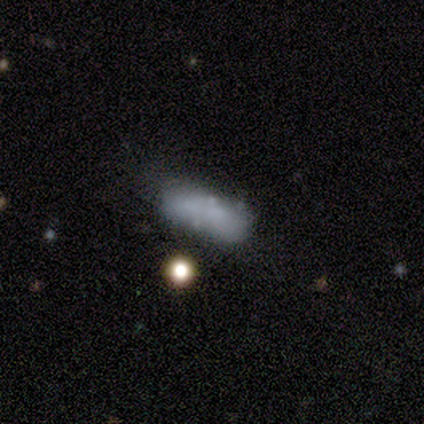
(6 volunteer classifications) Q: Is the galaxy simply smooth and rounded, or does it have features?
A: smooth — 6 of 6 (100%).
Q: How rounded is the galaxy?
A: in between — 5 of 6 (83%).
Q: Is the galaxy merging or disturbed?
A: minor disturbance — 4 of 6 (67%).